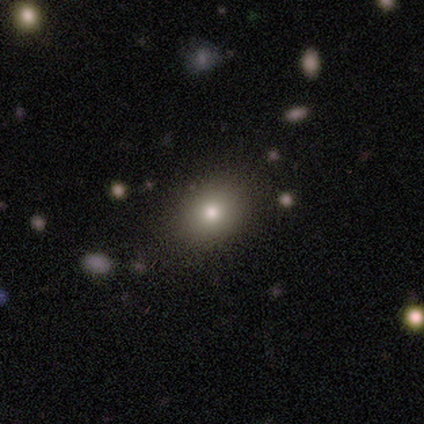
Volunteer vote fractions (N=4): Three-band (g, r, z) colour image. It shows a smooth galaxy with no disk features (100%) that is round (50%, tied with in between). Merging: none (75%).